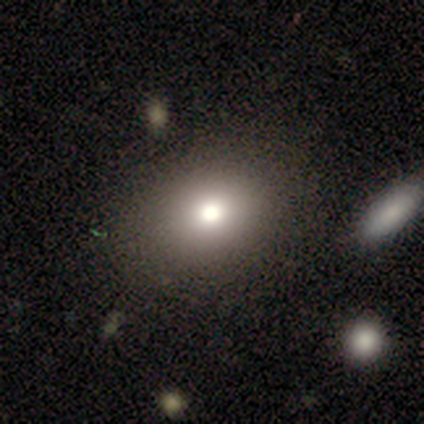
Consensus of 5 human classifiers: This is clearly a smooth galaxy (100%). How rounded: clearly in between (80%). Merging: clearly none (80%).